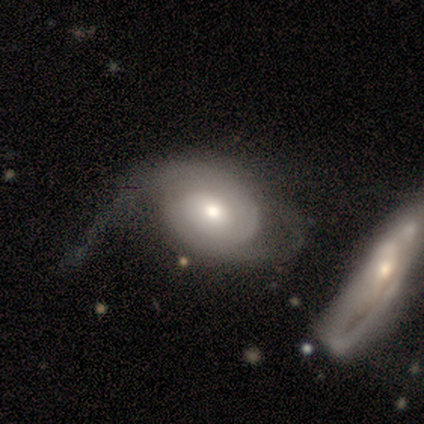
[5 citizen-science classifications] smooth-or-featured: featured or disk: 80% | smooth: 20% | star or artifact: 0%
  disk-edge-on: no: 100% | yes: 0%
    bar: no: 75% | weak: 25% | strong: 0%
    has-spiral-arms: yes: 50% (tied) | no: 50% (tied)
      spiral-winding: tight: 50% (tied) | medium: 50% (tied) | loose: 0%
      spiral-arm-count: 2: 100% | 1: 0% | 3: 0% | 4: 0% | more than 4: 0% | can't tell: 0%
    bulge-size: moderate: 50% | large: 25% | small: 25% | dominant: 0% | none: 0%
  merging: major disturbance: 40% (tied) | merger: 40% (tied) | none: 20% | minor disturbance: 0%